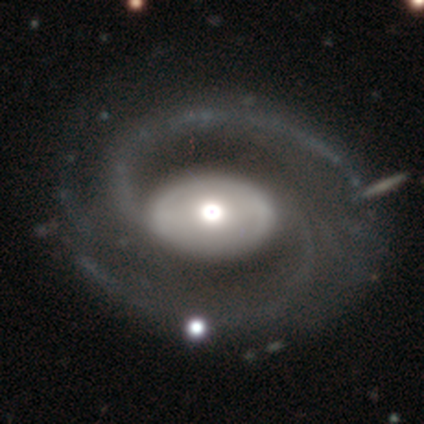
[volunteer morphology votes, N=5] type=featured or disk (100%); edge-on=no (100%); bar=no (80%); spiral arms=yes (100%); winding=medium (40%, tied with loose); arm count=2 (100%); bulge=moderate (60%); merging=none (80%).